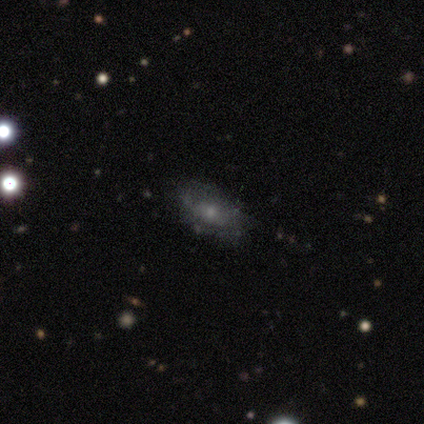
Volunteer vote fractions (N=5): smooth-or-featured: featured or disk: 80% | smooth: 20% | star or artifact: 0%
  disk-edge-on: no: 75% | yes: 25%
    bar: no: 100% | strong: 0% | weak: 0%
    has-spiral-arms: no: 67% | yes: 33%
    bulge-size: small: 67% | moderate: 33% | dominant: 0% | large: 0% | none: 0%
  merging: minor disturbance: 60% | none: 40% | major disturbance: 0% | merger: 0%